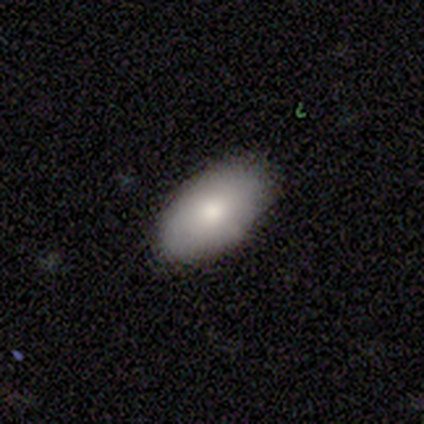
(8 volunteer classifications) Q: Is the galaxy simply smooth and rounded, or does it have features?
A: smooth — 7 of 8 (88%).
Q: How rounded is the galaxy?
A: in between — 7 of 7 (100%).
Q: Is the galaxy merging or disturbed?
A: none — 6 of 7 (86%).